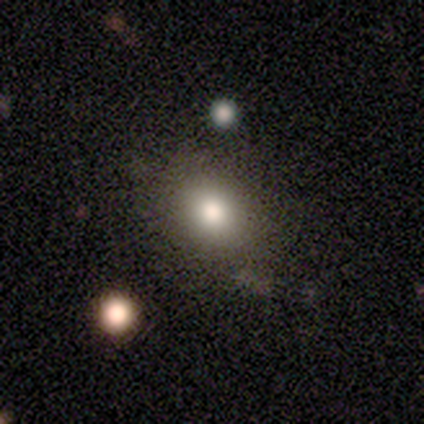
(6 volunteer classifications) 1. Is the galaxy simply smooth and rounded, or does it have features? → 100% smooth, 0% featured or disk, 0% star or artifact.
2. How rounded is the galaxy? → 67% round, 33% in between, 0% cigar-shaped.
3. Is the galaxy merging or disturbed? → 83% none, 17% minor disturbance, 0% major disturbance, 0% merger.